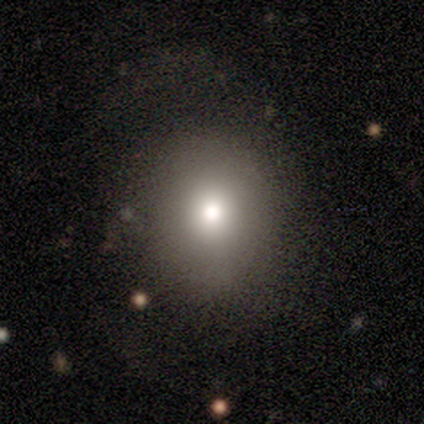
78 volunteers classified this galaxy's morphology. Smooth or featured? smooth (79%)
How rounded? round (74%)
Merging? none (34%)